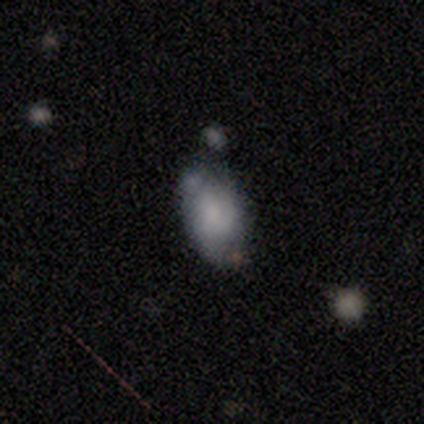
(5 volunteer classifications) Smooth or featured? smooth (100%)
How rounded? in between (100%)
Merging? none (40%)